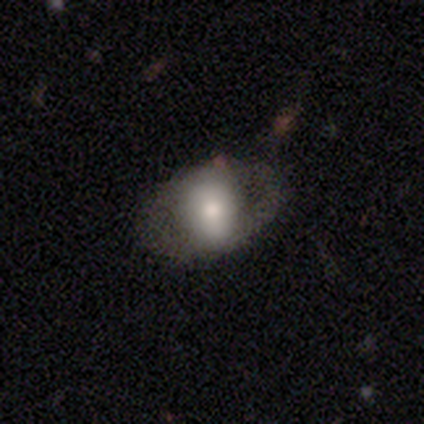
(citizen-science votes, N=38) smooth 66%, featured or disk 32%, star or artifact 3%. Down the decision tree: how rounded — in between (76%); merging — none (46%).